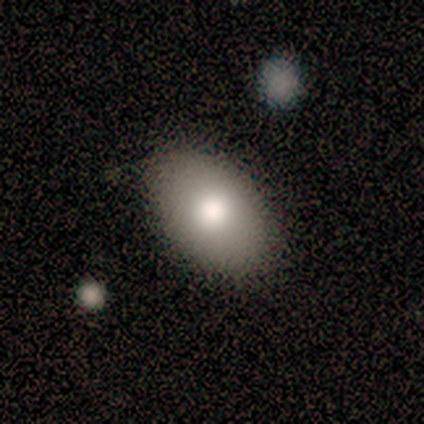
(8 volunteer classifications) A smooth galaxy with no disk features (62%) that is in between round and cigar-shaped (100%). Merging: none (75%).